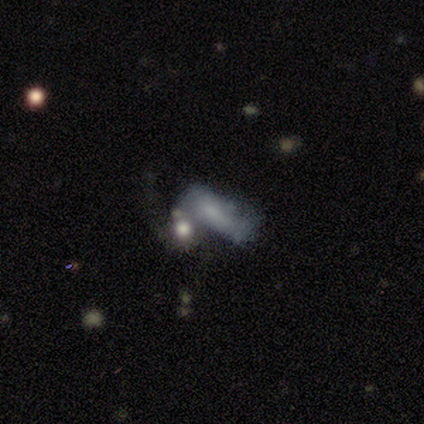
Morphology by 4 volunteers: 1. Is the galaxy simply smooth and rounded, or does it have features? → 100% smooth, 0% featured or disk, 0% star or artifact.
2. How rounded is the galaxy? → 50% in between, 25% round, 25% cigar-shaped.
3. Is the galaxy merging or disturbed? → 75% none, 25% merger, 0% minor disturbance, 0% major disturbance.